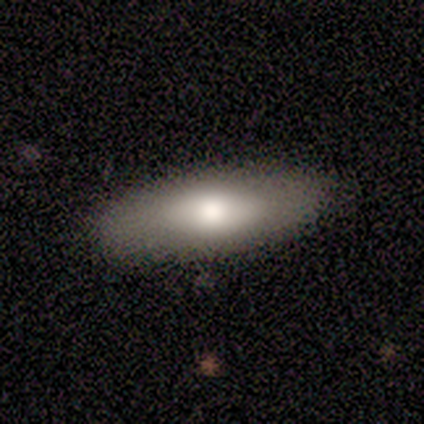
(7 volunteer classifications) A smooth galaxy with no disk features (57%) that is in between round and cigar-shaped (75%).

Vote fractions:
- Smooth or featured? smooth: 57% / featured or disk: 43% / star or artifact: 0%
- How rounded? in between: 75% / cigar-shaped: 25% / round: 0%
- Merging? none: 71% / minor disturbance: 14% / major disturbance: 14% / merger: 0%